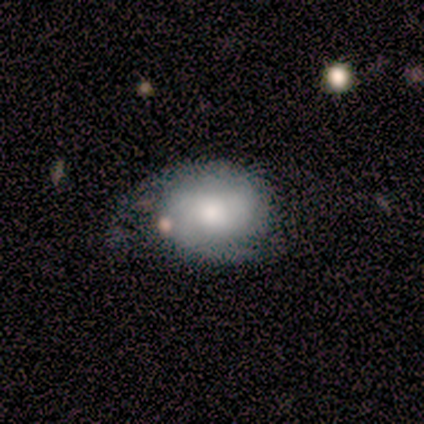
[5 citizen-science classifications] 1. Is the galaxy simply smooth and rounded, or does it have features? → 60% smooth, 40% featured or disk, 0% star or artifact.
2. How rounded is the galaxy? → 67% in between, 33% round, 0% cigar-shaped.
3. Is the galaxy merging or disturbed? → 60% minor disturbance, 20% none, 20% major disturbance, 0% merger.